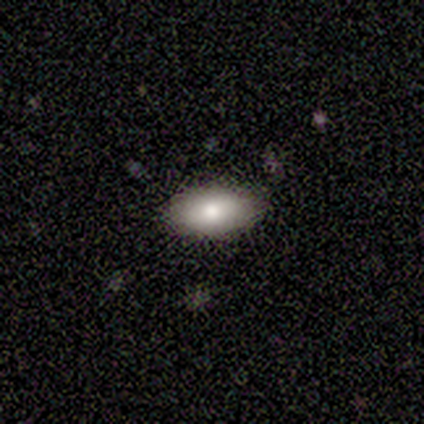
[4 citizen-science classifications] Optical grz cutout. It shows a smooth galaxy with no disk features (75%) that is in between round and cigar-shaped (100%). Merging: none (100%).